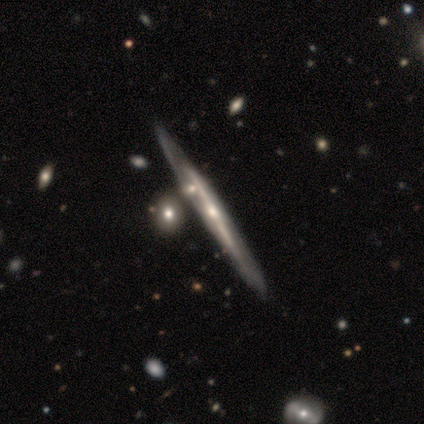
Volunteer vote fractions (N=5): smooth-or-featured: featured or disk: 80% | smooth: 20% | star or artifact: 0%
  disk-edge-on: yes: 100% | no: 0%
    edge-on-bulge: none: 75% | rounded: 25% | boxy: 0%
  merging: none: 100% | minor disturbance: 0% | major disturbance: 0% | merger: 0%